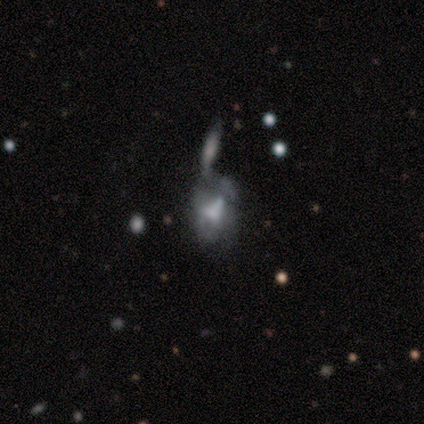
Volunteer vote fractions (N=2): This is clearly a featured or disk galaxy (100%). It is clearly not viewed edge-on (100%). Bar: possibly weak (50%, tied with no). Spiral arm pattern: clearly no (100%). Central bulge: possibly large (50%, tied with none). Merging: possibly major disturbance (50%, tied with merger).